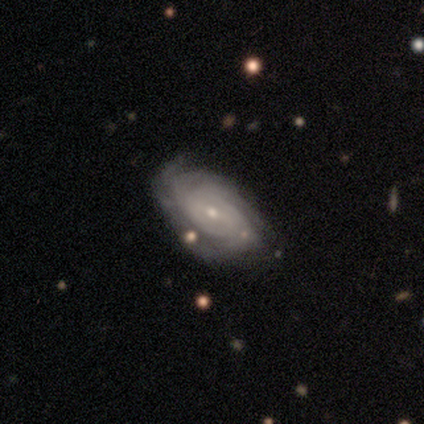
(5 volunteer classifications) Smooth or featured? 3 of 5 (60%) said featured or disk. Edge-on disk? 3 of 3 (100%) said no. Bar? 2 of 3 (67%) said weak. Spiral arms? 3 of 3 (100%) said yes. Spiral winding? 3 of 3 (100%) said tight. Spiral arm count? 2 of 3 (67%) said can't tell. Bulge size? 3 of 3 (100%) said small. Merging? 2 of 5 (40%, tied with minor disturbance) said none.